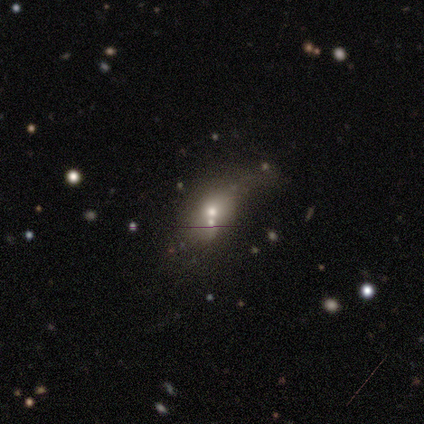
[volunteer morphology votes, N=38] Q: Smooth or featured?
A: smooth (39%); tied with: star or artifact (39%)
Q: How rounded?
A: in between (60%); runner-up: round (40%)
Q: Merging?
A: merger (35%); runner-up: none (26%)